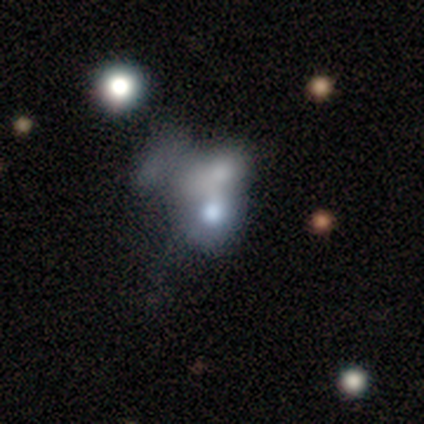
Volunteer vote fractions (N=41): smooth_or_featured: smooth (p=0.49) [alt: featured or disk p=0.37]
how_rounded: in between (p=0.55) [alt: round p=0.45]
merging: merger (p=0.69) [alt: none p=0.23]